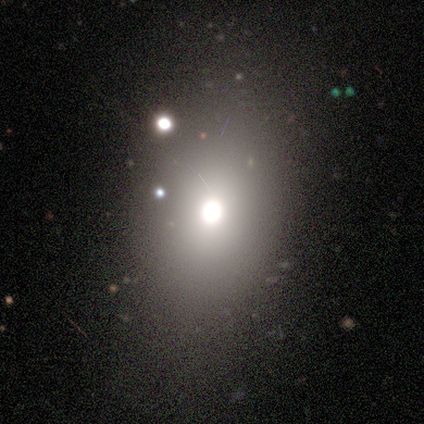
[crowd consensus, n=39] Morphology: type=smooth (54%); roundness=in between (52%); merging=none (77%).